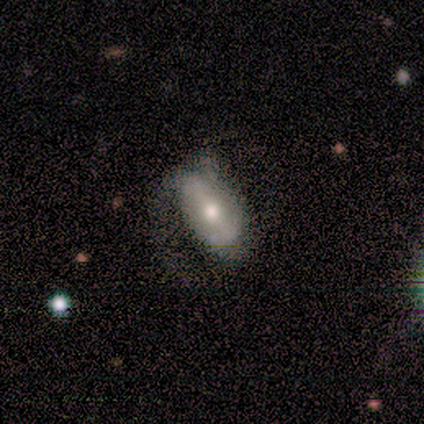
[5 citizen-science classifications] This is likely a smooth galaxy (60%). How rounded: clearly in between (100%). Merging: possibly minor disturbance (50%).